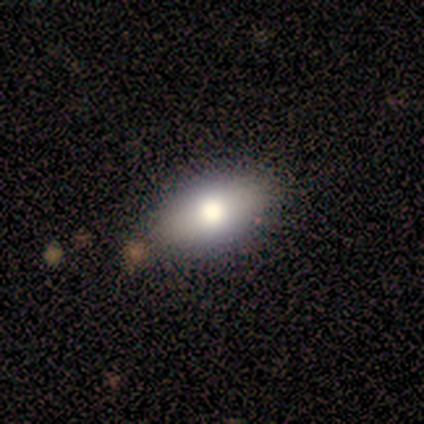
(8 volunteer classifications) Morphology: type=featured or disk (50%); edge-on=yes (50%, tied with no); edge-on bulge=rounded (100%); merging=none (86%).